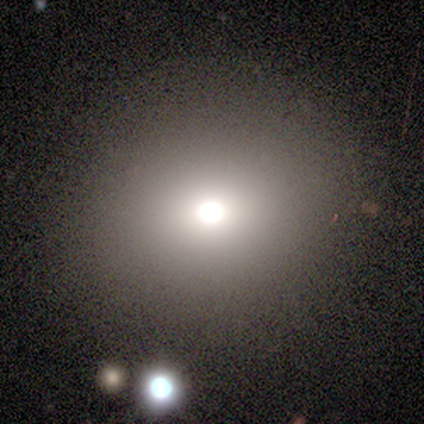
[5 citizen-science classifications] Smooth or featured? smooth (100%)
How rounded? round (100%)
Merging? none (100%)